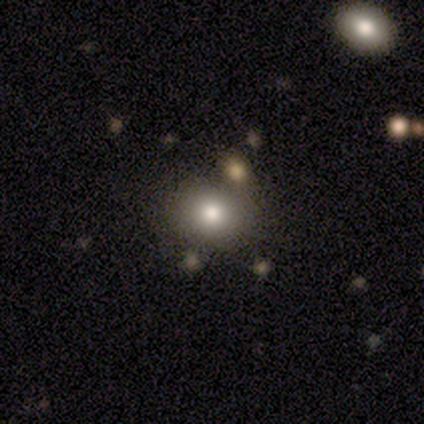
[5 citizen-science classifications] This appears to be a smooth galaxy with no disk features (80%) that is in between round and cigar-shaped (75%). Merging: none (100%).